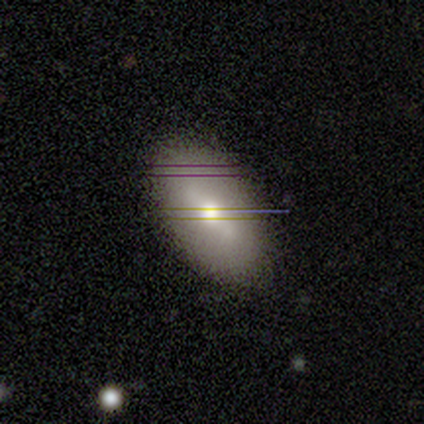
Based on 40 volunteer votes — This is possibly a featured or disk galaxy (48%). It is likely not viewed edge-on (79%). Bar: possibly strong (53%). Spiral arm pattern: clearly no (80%). Central bulge: likely moderate (60%). Merging: likely none (74%).